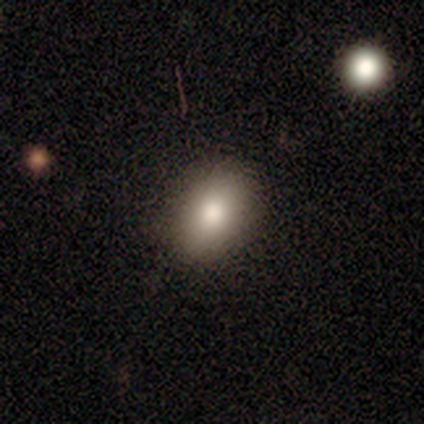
Smooth or featured?
  - smooth: 100% *
  - featured or disk: 0%
  - star or artifact: 0%
How rounded?
  - in between: 60% *
  - round: 40%
  - cigar-shaped: 0%
Merging?
  - none: 100% *
  - minor disturbance: 0%
  - major disturbance: 0%
  - merger: 0%